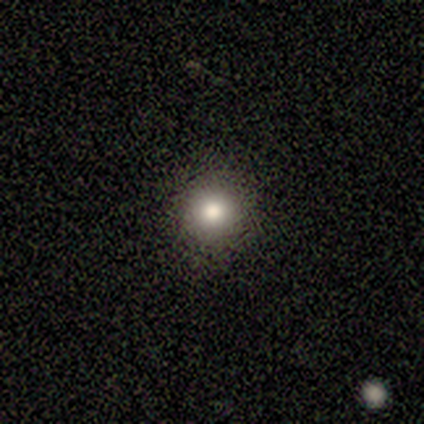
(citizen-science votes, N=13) Morphology: type=smooth (77%); roundness=round (100%); merging=none (100%).